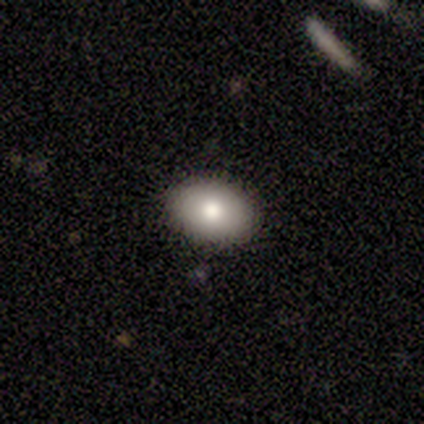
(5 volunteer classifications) Smooth or featured?
  - smooth: 80% *
  - featured or disk: 20%
  - star or artifact: 0%
How rounded?
  - in between: 75% *
  - round: 25%
  - cigar-shaped: 0%
Merging?
  - none: 100% *
  - minor disturbance: 0%
  - major disturbance: 0%
  - merger: 0%